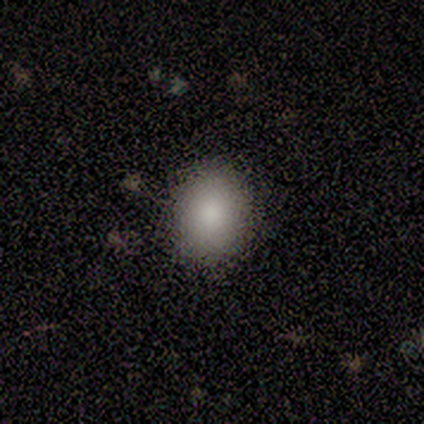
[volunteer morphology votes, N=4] Smooth or featured?
  - smooth: 50% * (tied)
  - featured or disk: 50% * (tied)
  - star or artifact: 0%
How rounded?
  - round: 50% * (tied)
  - in between: 50% * (tied)
  - cigar-shaped: 0%
Merging?
  - none: 75% *
  - minor disturbance: 25%
  - major disturbance: 0%
  - merger: 0%